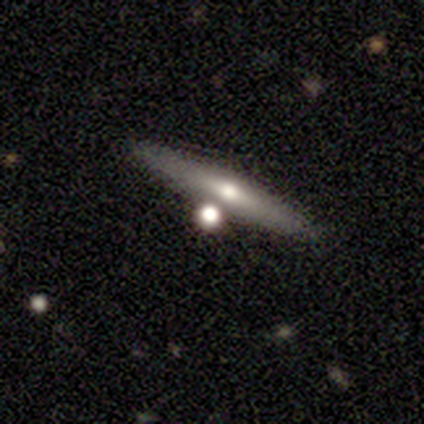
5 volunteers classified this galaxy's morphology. smooth-or-featured: featured or disk: 60% | smooth: 40% | star or artifact: 0%
  disk-edge-on: yes: 67% | no: 33%
    edge-on-bulge: rounded: 100% | boxy: 0% | none: 0%
  merging: none: 80% | minor disturbance: 20% | major disturbance: 0% | merger: 0%